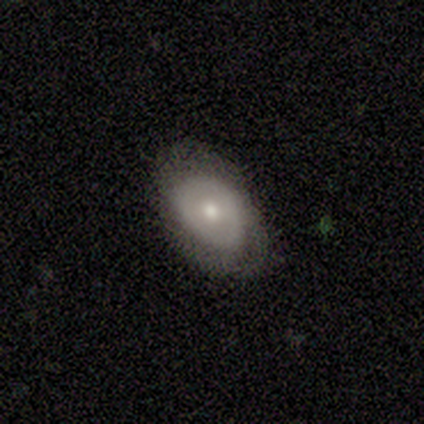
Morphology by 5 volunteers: Smooth or featured?
  - smooth: 80% *
  - featured or disk: 20%
  - star or artifact: 0%
How rounded?
  - round: 50% * (tied)
  - in between: 50% * (tied)
  - cigar-shaped: 0%
Merging?
  - none: 40% * (tied)
  - minor disturbance: 40% * (tied)
  - major disturbance: 20%
  - merger: 0%